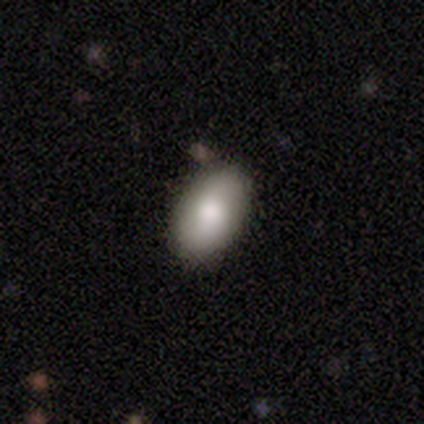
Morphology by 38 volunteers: Smooth or featured? smooth (76%)
How rounded? in between (100%)
Merging? none (67%)